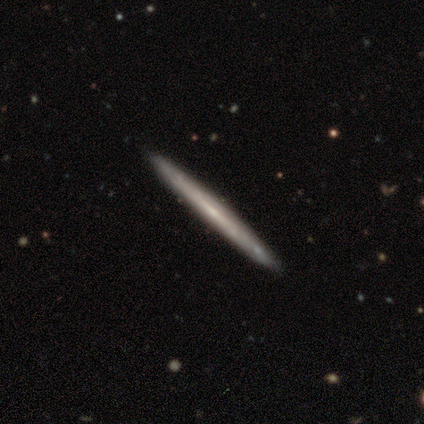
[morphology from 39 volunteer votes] Volunteers were most divided on "smooth or featured": featured or disk: 64%, smooth: 33%, star or artifact: 3%. More confident: edge-on disk — yes (88%); edge-on bulge — none (86%); merging — none (84%).